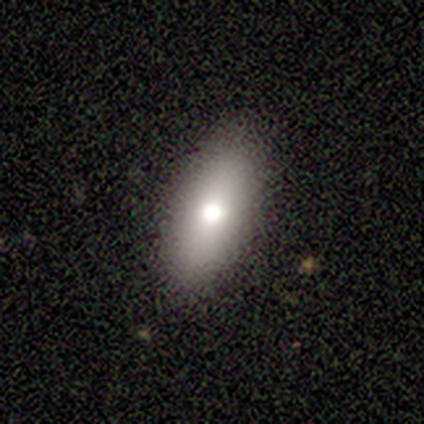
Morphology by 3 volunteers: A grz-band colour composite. It shows a smooth galaxy with no disk features (67%) that is in between round and cigar-shaped (100%). Merging: none (100%).